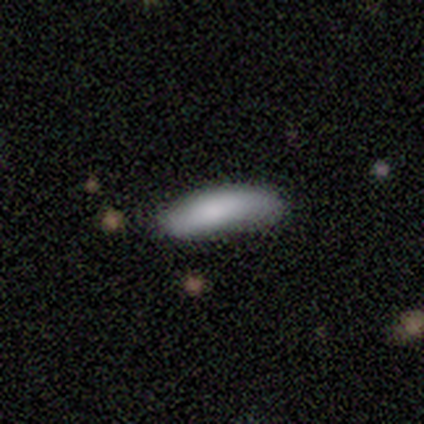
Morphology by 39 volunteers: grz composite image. It shows a smooth galaxy with no disk features (87%) that is in between round and cigar-shaped (62%). Merging: none (61%).